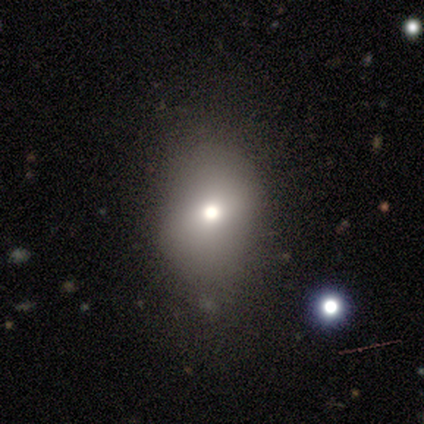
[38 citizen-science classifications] smooth_or_featured: smooth (p=0.71) [alt: featured or disk p=0.16]
how_rounded: in between (p=0.56) [alt: round p=0.44]
merging: none (p=0.88) [alt: minor disturbance p=0.12]